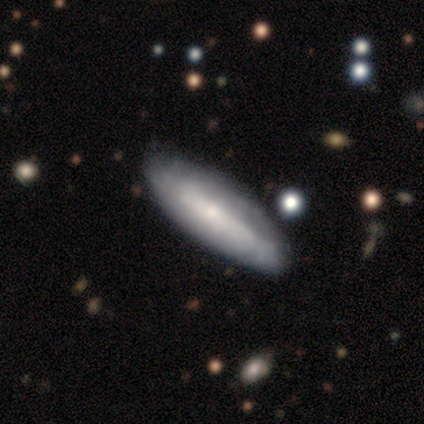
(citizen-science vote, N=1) Morphology: type=featured or disk (100%); edge-on=yes (100%); edge-on bulge=rounded (100%); merging=none (100%).